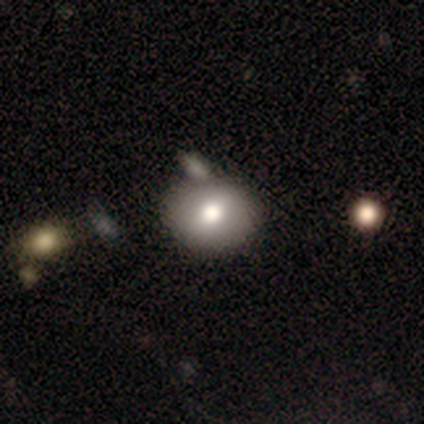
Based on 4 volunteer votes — smooth_or_featured: smooth (p=0.50) [alt: featured or disk p=0.25]
how_rounded: round (p=0.50) [tied with: in between p=0.50]
merging: none (p=0.67) [alt: major disturbance p=0.33]